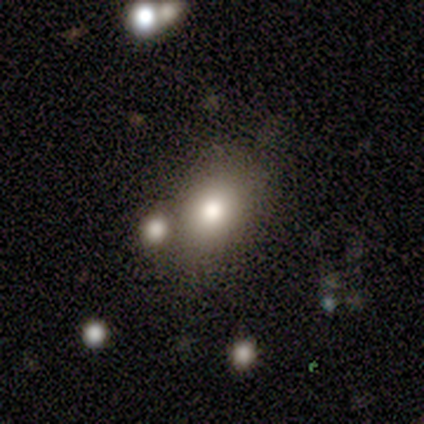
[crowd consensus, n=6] smooth_or_featured: smooth (p=0.67) [alt: star or artifact p=0.33]
how_rounded: in between (p=0.75) [alt: round p=0.25]
merging: none (p=0.50) [alt: minor disturbance p=0.25]